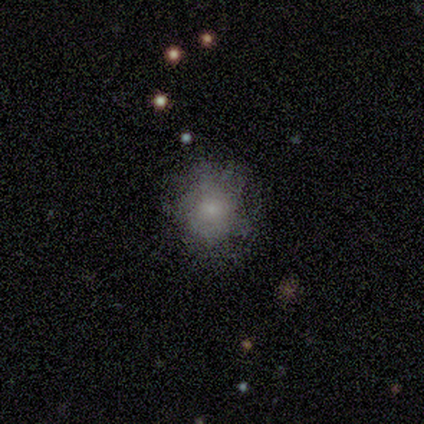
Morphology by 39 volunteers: smooth 44%, featured or disk 36%, star or artifact 21%. Down the decision tree: how rounded — round (71%); merging — none (68%).